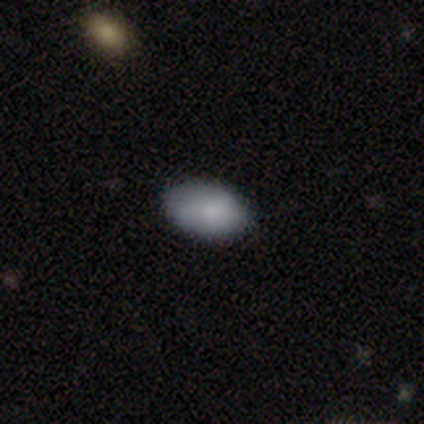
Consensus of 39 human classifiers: Smooth or featured? smooth (90%)
How rounded? in between (94%)
Merging? none (81%)